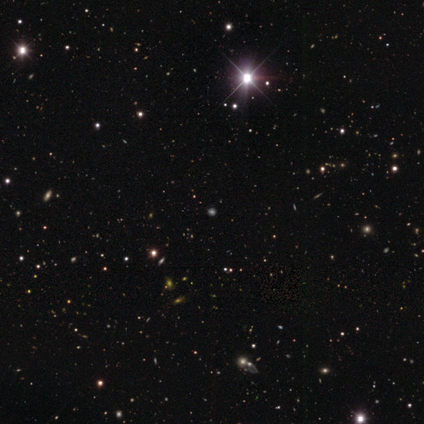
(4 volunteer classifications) A smooth galaxy with no disk features (50%, tied with star or artifact) that is round (100%). Merging: none (50%, tied with minor disturbance).